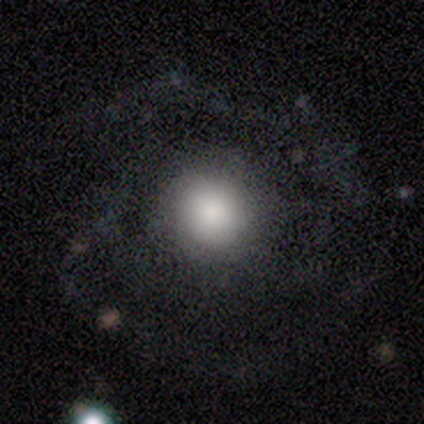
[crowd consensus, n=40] smooth 50%, featured or disk 40%, star or artifact 10%. Down the decision tree: how rounded — round (90%); merging — none (67%).